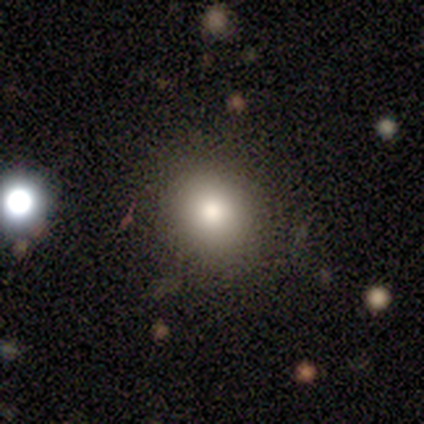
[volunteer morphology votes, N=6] smooth-or-featured: smooth: 67% | featured or disk: 17% | star or artifact: 17%
  how-rounded: round: 75% | in between: 25% | cigar-shaped: 0%
  merging: none: 80% | minor disturbance: 20% | major disturbance: 0% | merger: 0%